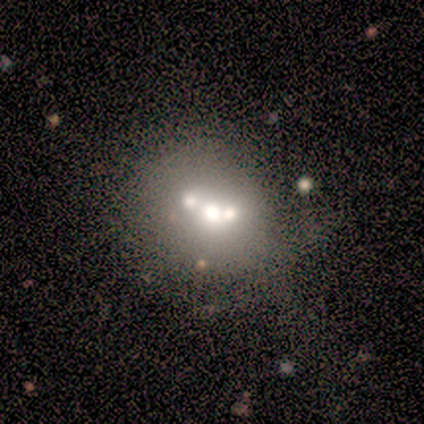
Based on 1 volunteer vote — Smooth or featured: featured or disk — 100%
Edge-on disk: no — 100%
Bar: no — 100%
Spiral arms: no — 100%
Bulge size: small — 100%
Merging: minor disturbance — 100%